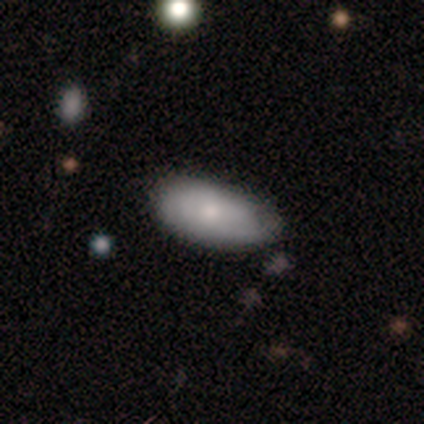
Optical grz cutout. It shows a smooth galaxy with no disk features (100%) that is in between round and cigar-shaped (100%). Merging: none (75%).